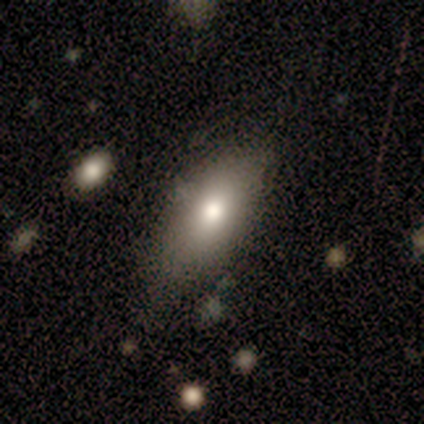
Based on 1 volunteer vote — Smooth or featured? smooth (100%)
How rounded? in between (100%)
Merging? none (100%)